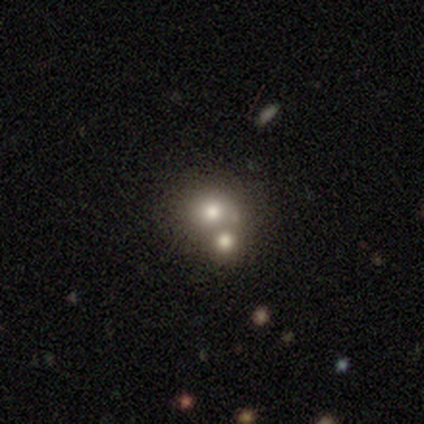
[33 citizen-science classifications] A smooth galaxy with no disk features (67%) that is round (95%). Merging: merger (50%).